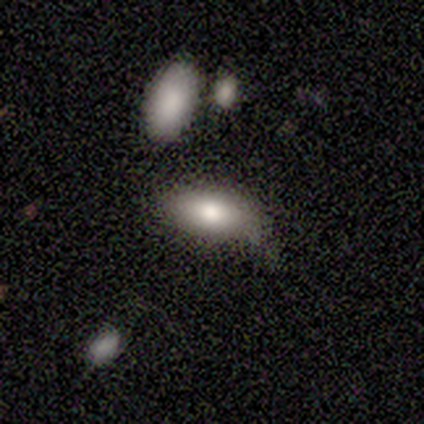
This is likely a smooth galaxy (60%). How rounded: clearly in between (100%). Merging: possibly none (50%, tied with minor disturbance).